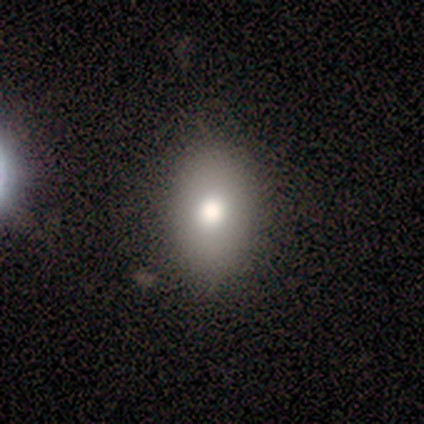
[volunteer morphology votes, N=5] Q: Smooth or featured?
A: smooth (80%); runner-up: featured or disk (20%)
Q: How rounded?
A: in between (100%)
Q: Merging?
A: none (80%); runner-up: minor disturbance (20%)